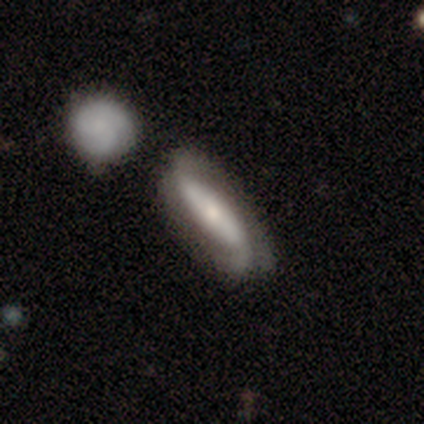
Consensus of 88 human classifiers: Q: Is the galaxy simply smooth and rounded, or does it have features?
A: featured or disk — 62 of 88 (70%).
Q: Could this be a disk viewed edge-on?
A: no — 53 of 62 (85%).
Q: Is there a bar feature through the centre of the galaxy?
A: strong — 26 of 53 (49%).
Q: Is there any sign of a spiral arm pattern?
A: yes — 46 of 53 (87%).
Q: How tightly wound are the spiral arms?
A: loose — 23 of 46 (50%).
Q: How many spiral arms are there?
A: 2 — 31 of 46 (67%).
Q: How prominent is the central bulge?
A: small — 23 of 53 (43%).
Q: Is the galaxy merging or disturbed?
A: none — 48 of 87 (55%).